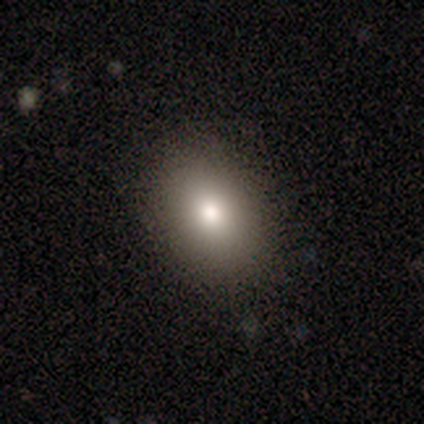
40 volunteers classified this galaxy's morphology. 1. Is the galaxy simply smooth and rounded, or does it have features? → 90% smooth, 5% featured or disk, 5% star or artifact.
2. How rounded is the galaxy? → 81% in between, 19% round, 0% cigar-shaped.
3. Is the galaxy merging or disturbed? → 92% none, 8% minor disturbance, 0% major disturbance, 0% merger.